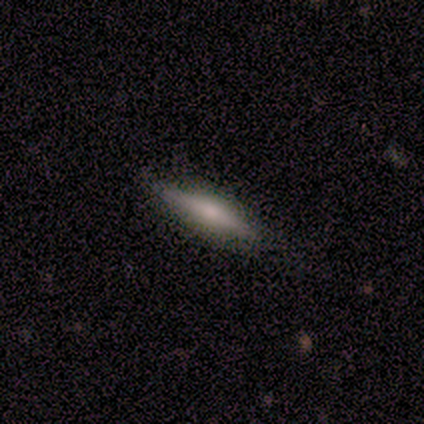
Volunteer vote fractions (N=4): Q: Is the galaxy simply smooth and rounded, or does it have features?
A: smooth — 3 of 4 (75%).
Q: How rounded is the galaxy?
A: cigar-shaped — 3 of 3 (100%).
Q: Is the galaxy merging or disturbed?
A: none — 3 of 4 (75%).